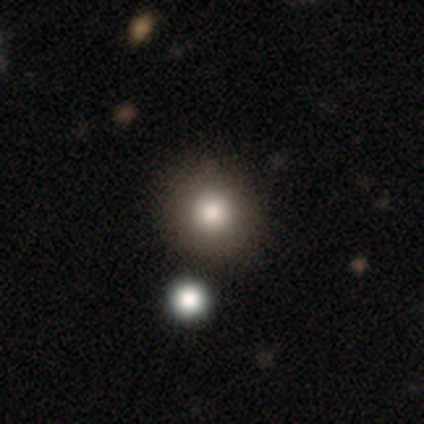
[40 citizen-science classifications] Q: Smooth or featured?
A: smooth (72%); runner-up: featured or disk (15%)
Q: How rounded?
A: round (97%); runner-up: in between (3%)
Q: Merging?
A: none (83%); runner-up: merger (11%)